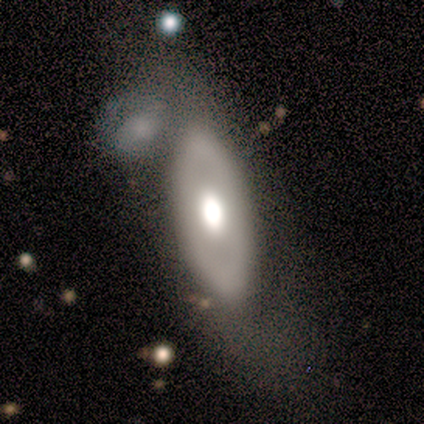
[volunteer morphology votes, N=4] Volunteers were most divided on "smooth or featured" (2-way tie): smooth: 50%, featured or disk: 50%, star or artifact: 0%; "how rounded" (2-way tie): round: 50%, in between: 50%, cigar-shaped: 0%. More confident: merging — merger (50%).